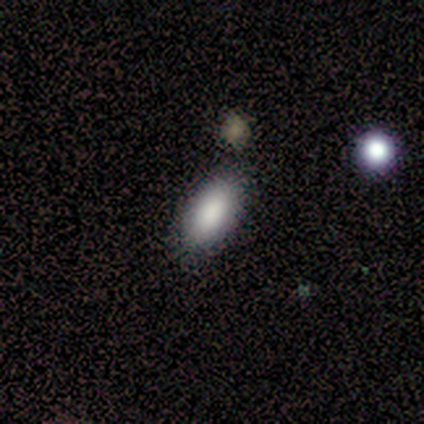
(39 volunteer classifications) This is clearly a smooth galaxy (85%). How rounded: likely in between (79%). Merging: clearly none (80%).